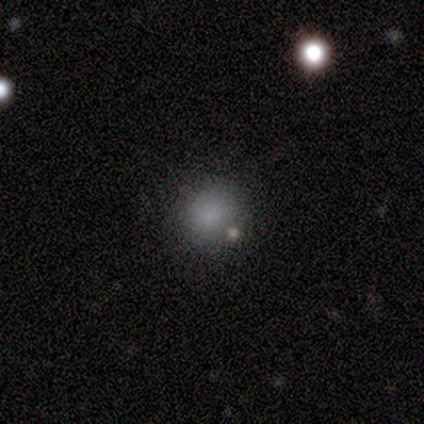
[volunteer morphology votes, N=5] Smooth or featured? smooth (100%)
How rounded? round (100%)
Merging? none (100%)